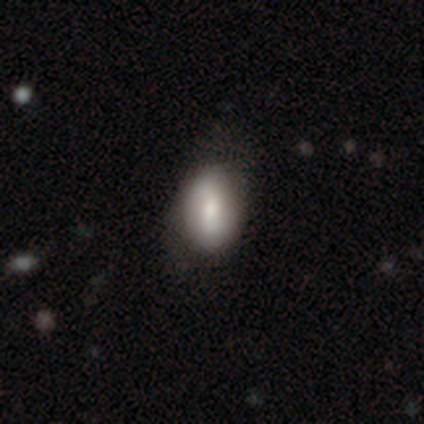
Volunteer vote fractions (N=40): Overall: smooth (62%; featured or disk 35%). How rounded: in between (88%). Merging: none (49%; minor disturbance 18%).